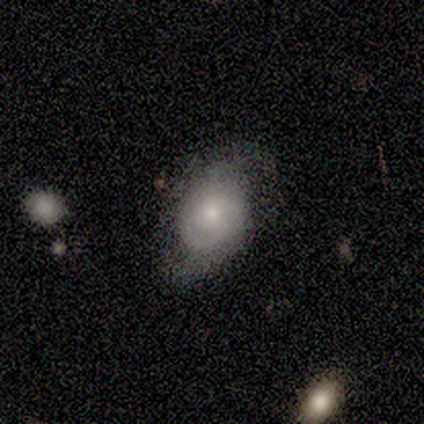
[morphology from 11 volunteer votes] Smooth or featured?
  - featured or disk: 91% *
  - smooth: 9%
  - star or artifact: 0%
Edge-on disk?
  - no: 100% *
  - yes: 0%
Bar?
  - no: 80% *
  - weak: 20%
  - strong: 0%
Spiral arms?
  - yes: 90% *
  - no: 10%
Spiral winding?
  - medium: 67% *
  - tight: 22%
  - loose: 11%
Spiral arm count?
  - 2: 89% *
  - can't tell: 11%
  - 1: 0%
  - 3: 0%
  - 4: 0%
  - more than 4: 0%
Bulge size?
  - moderate: 50% *
  - small: 40%
  - large: 10%
  - dominant: 0%
  - none: 0%
Merging?
  - none: 55% *
  - minor disturbance: 18%
  - major disturbance: 18%
  - merger: 9%